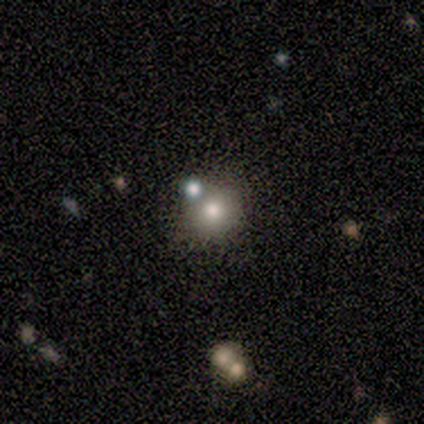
This is likely a smooth galaxy (75%). How rounded: clearly round (100%). Merging: clearly none (100%).